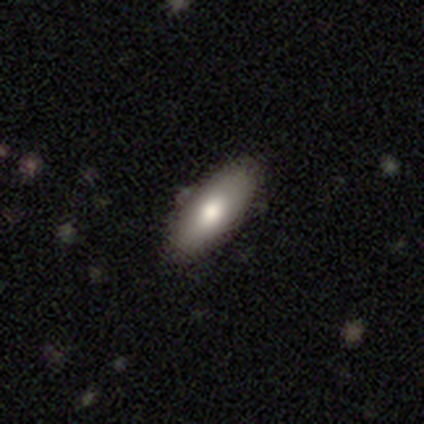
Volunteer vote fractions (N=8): Smooth or featured? 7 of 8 (88%) said smooth. How rounded? 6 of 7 (86%) said in between. Merging? 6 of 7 (86%) said none.